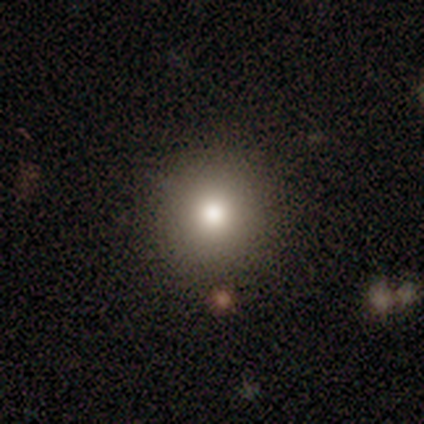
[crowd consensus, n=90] smooth_or_featured: smooth (p=0.76) [alt: featured or disk p=0.12]
how_rounded: round (p=0.97) [alt: in between p=0.03]
merging: none (p=0.95) [alt: minor disturbance p=0.04]